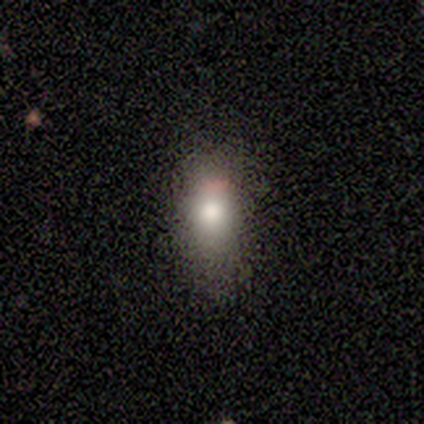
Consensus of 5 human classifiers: smooth_or_featured: smooth (p=0.80) [alt: star or artifact p=0.20]
how_rounded: in between (p=0.75) [alt: round p=0.25]
merging: none (p=0.50) [alt: minor disturbance p=0.25]